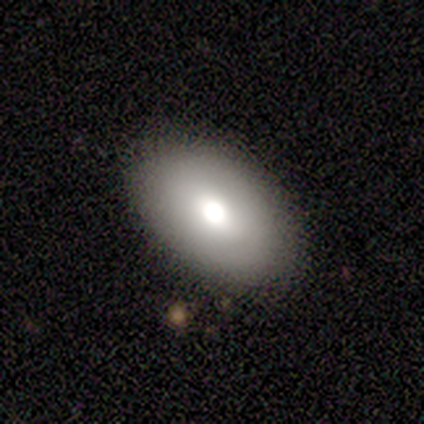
smooth_or_featured: smooth (p=0.88) [alt: featured or disk p=0.12]
how_rounded: in between (p=1.00)
merging: none (p=0.88) [alt: minor disturbance p=0.12]